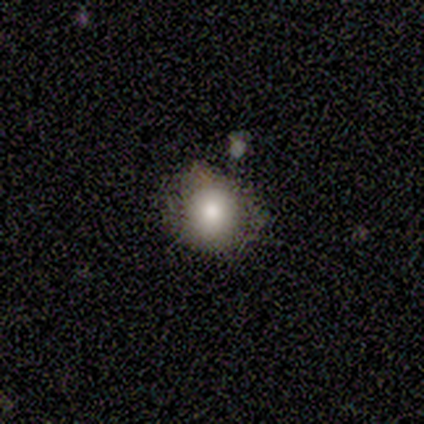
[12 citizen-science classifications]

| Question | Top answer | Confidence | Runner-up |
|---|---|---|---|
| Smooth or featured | smooth | 92% | star or artifact (8%) |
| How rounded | round | 73% | in between (27%) |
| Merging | none | 82% | minor disturbance (18%) |